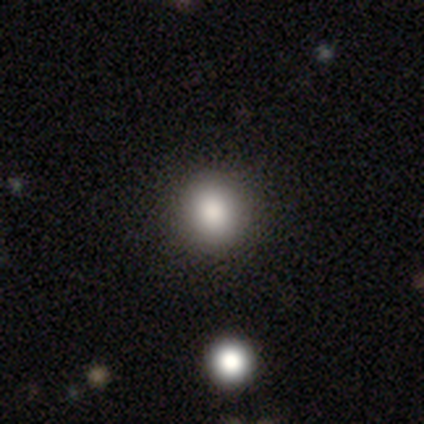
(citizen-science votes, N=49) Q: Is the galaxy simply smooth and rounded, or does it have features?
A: smooth — 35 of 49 (71%).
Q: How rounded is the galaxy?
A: round — 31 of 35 (89%).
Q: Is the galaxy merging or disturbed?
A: none — 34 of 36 (94%).